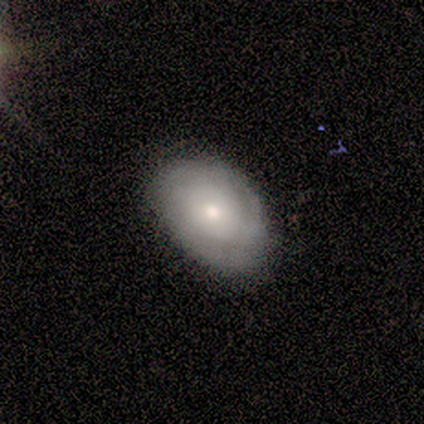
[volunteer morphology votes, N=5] This is likely a smooth galaxy (60%). How rounded: likely in between (67%). Merging: likely none (60%).